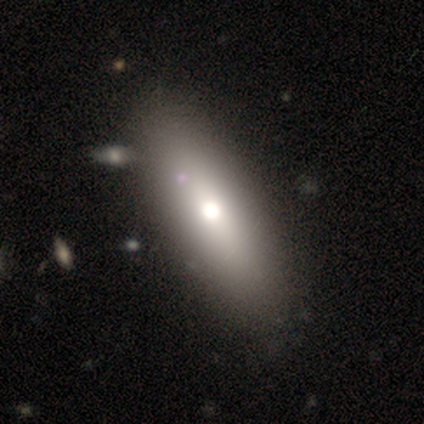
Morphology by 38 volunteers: Smooth or featured: smooth — 84% (featured or disk — 8%)
How rounded: in between — 75% (cigar-shaped — 19%)
Merging: none — 57% (merger — 14%)